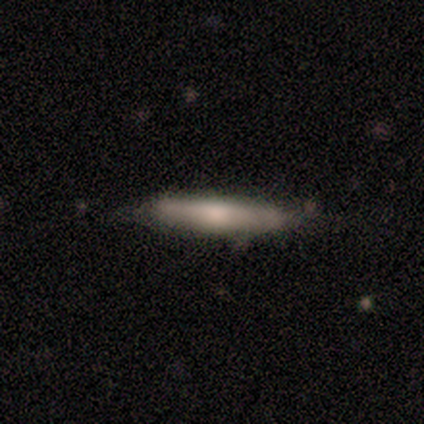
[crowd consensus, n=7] A smooth galaxy with no disk features (71%) that is cigar-shaped (100%). Merging: none (86%).